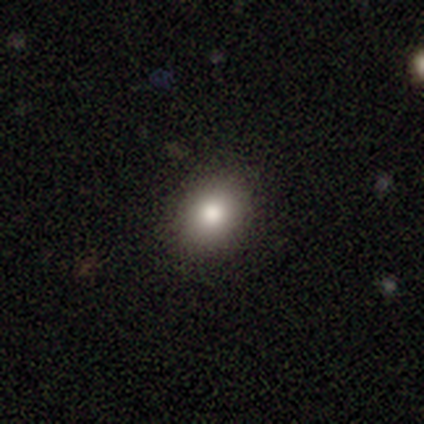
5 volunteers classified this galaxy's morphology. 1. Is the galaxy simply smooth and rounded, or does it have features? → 80% smooth, 20% featured or disk, 0% star or artifact.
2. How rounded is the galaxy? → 75% round, 25% in between, 0% cigar-shaped.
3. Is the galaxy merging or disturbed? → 100% none, 0% minor disturbance, 0% major disturbance, 0% merger.